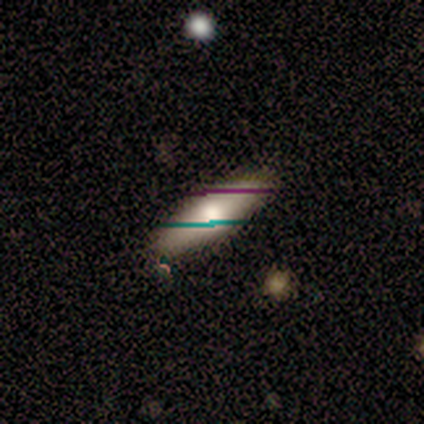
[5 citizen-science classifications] Overall: smooth (60%; featured or disk 40%). How rounded: in between (67%; cigar-shaped 33%). Merging: none (100%).